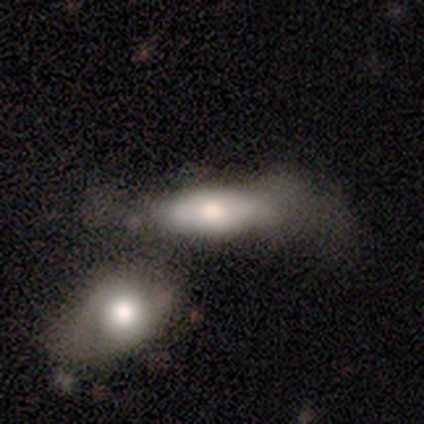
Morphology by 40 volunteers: type=smooth (52%); roundness=in between (86%); merging=merger (53%).